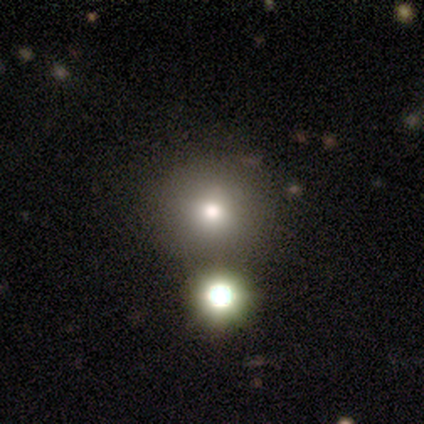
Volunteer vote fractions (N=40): smooth 70%, star or artifact 20%, featured or disk 10%. Down the decision tree: how rounded — round (93%); merging — none (75%).